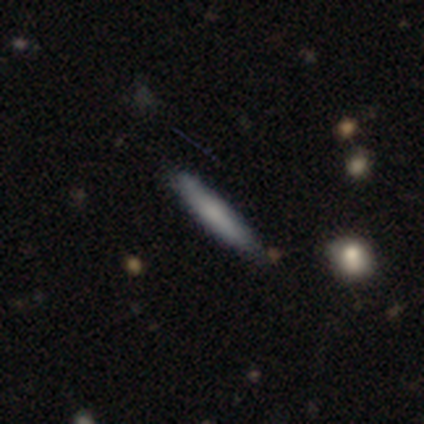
This is clearly a smooth galaxy (100%). How rounded: clearly cigar-shaped (100%). Merging: clearly none (80%).